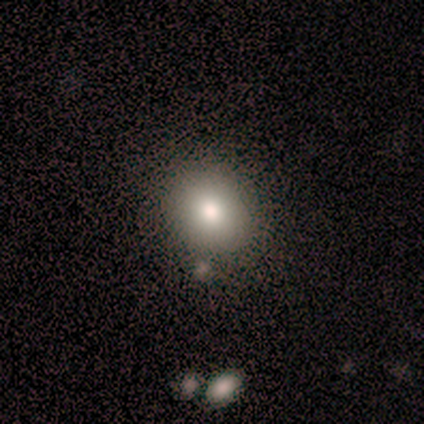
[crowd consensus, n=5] smooth-or-featured: smooth: 100% | featured or disk: 0% | star or artifact: 0%
  how-rounded: in between: 60% | round: 40% | cigar-shaped: 0%
  merging: none: 100% | minor disturbance: 0% | major disturbance: 0% | merger: 0%